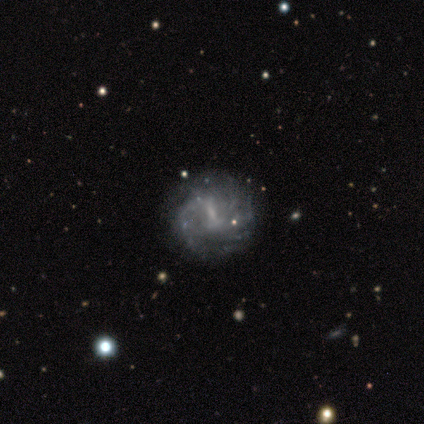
Volunteers were most divided on "spiral arm count" (3-way tie): 2: 33%, more than 4: 33%, can't tell: 33%, 1: 0%, 3: 0%, 4: 0%. More confident: edge-on disk — no (100%); bar — weak (100%); spiral winding — tight (100%); merging — none (100%); smooth or featured — featured or disk (80%); spiral arms — yes (75%); bulge size — none (50%).